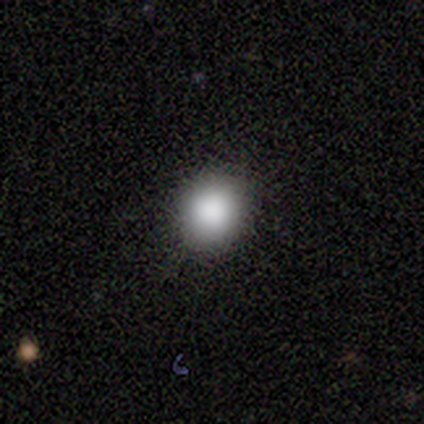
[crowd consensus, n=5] A smooth galaxy with no disk features (100%) that is round (60%). Merging: none (100%).